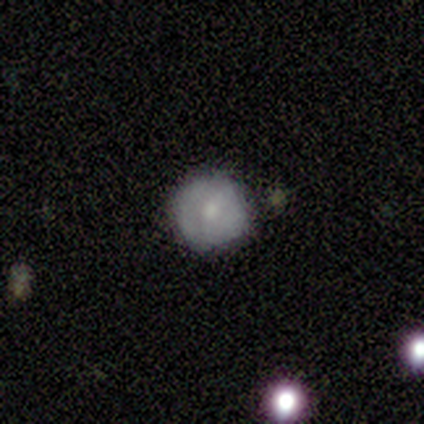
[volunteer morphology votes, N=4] Smooth or featured? smooth (100%)
How rounded? round (100%)
Merging? none (75%)